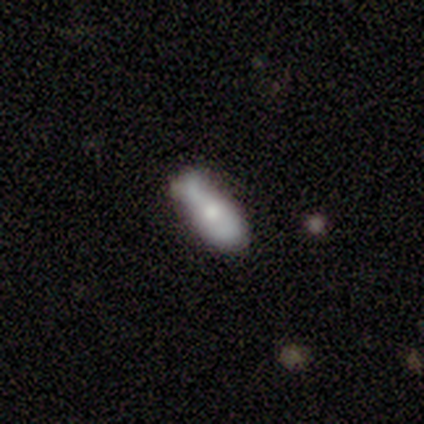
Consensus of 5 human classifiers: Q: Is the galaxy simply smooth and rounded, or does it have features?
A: featured or disk — 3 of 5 (60%).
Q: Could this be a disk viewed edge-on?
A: no — 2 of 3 (67%).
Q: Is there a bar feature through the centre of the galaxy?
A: no — 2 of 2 (100%).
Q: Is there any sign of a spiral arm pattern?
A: no — 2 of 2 (100%).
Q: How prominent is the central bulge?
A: moderate — 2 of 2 (100%).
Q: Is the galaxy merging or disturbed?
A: minor disturbance — 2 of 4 (50%).